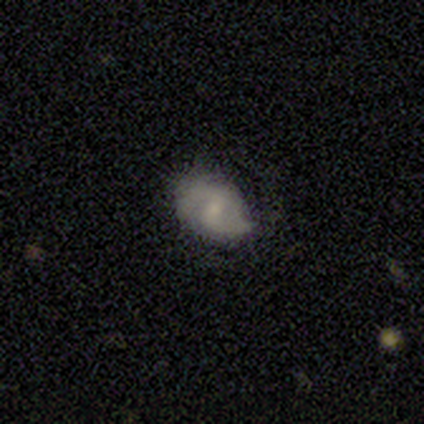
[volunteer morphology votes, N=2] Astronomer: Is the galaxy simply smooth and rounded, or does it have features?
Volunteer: featured or disk — 100%.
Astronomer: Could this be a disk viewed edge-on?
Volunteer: no — 100%.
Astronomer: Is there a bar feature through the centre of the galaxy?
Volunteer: weak — 50%, tied with no at 50%.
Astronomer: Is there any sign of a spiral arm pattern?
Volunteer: yes — 100%.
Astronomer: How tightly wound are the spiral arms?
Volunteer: tight — 50%, tied with loose at 50%.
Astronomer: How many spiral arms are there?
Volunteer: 2 — 50%, tied with can't tell at 50%.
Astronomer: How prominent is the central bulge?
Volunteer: moderate — 50%, tied with small at 50%.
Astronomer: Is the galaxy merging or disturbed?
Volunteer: none — 100%.